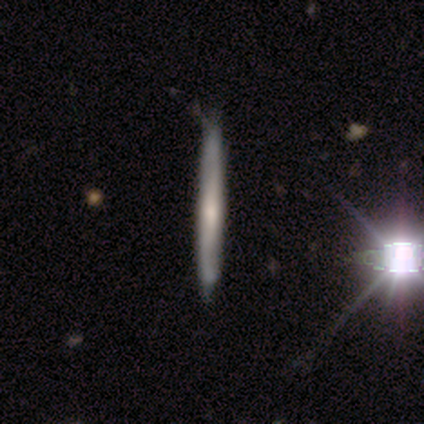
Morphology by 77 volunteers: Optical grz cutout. It shows a smooth galaxy with no disk features (48%, tied with featured or disk) that is cigar-shaped (100%). Merging: none (42%).